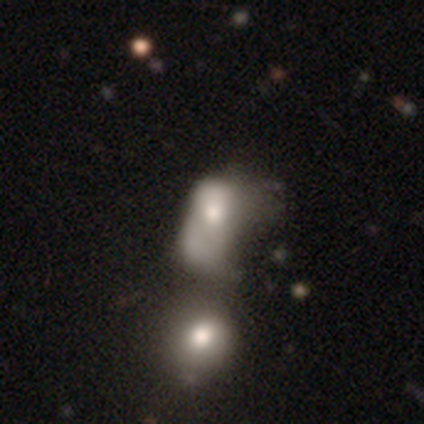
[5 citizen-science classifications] Smooth or featured?
  - smooth: 60% *
  - star or artifact: 40%
  - featured or disk: 0%
How rounded?
  - in between: 100% *
  - round: 0%
  - cigar-shaped: 0%
Merging?
  - merger: 67% *
  - major disturbance: 33%
  - none: 0%
  - minor disturbance: 0%